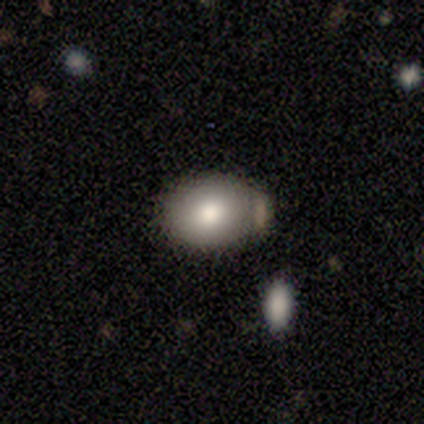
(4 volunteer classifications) Smooth or featured: smooth — 100%
How rounded: round — 50% (tied with in between — 50%)
Merging: none — 75% (merger — 25%)